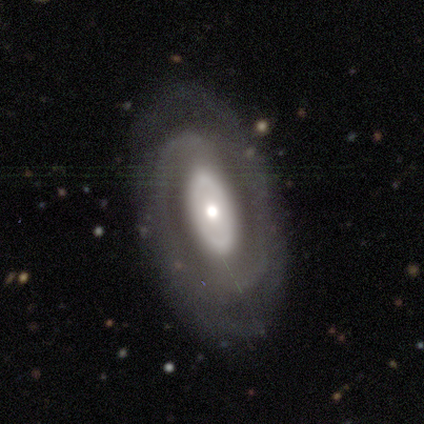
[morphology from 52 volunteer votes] smooth_or_featured: featured or disk (p=0.83) [alt: smooth p=0.10]
disk_edge_on: no (p=0.95) [alt: yes p=0.05]
bar: no (p=0.80) [alt: strong p=0.12]
has_spiral_arms: yes (p=0.73) [alt: no p=0.27]
spiral_winding: tight (p=0.43) [tied with: medium p=0.43]
spiral_arm_count: 2 (p=0.77) [alt: can't tell p=0.13]
bulge_size: moderate (p=0.51) [alt: small p=0.27]
merging: none (p=0.67) [alt: minor disturbance p=0.25]